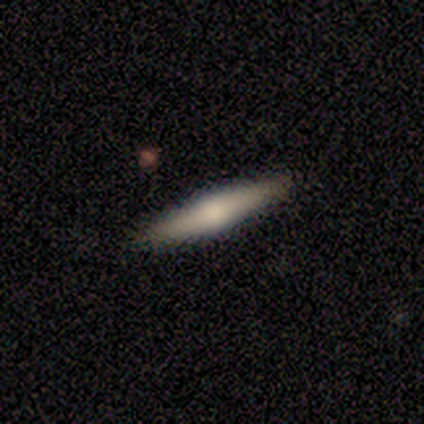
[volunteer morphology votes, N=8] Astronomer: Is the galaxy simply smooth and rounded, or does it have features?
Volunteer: featured or disk — 75%.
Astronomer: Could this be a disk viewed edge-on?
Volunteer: yes — 100%.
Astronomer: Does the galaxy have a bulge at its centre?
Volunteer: rounded — 100%.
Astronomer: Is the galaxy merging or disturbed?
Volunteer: none — 100%.